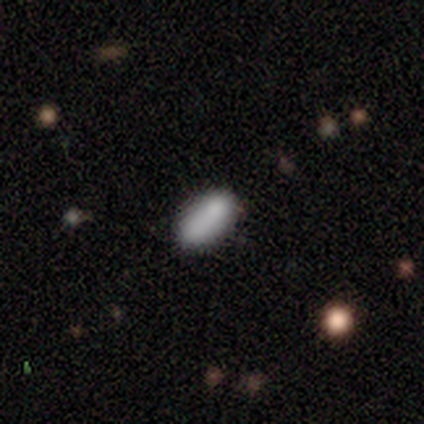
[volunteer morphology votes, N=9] smooth_or_featured: smooth (p=0.78) [alt: featured or disk p=0.22]
how_rounded: in between (p=1.00)
merging: none (p=0.78) [alt: merger p=0.22]